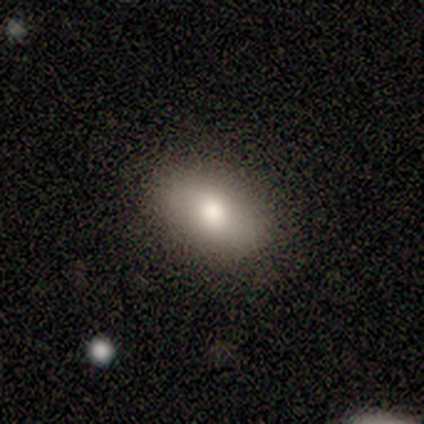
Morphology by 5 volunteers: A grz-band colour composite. It shows a smooth galaxy with no disk features (60%) that is in between round and cigar-shaped (100%). Merging: none (100%).